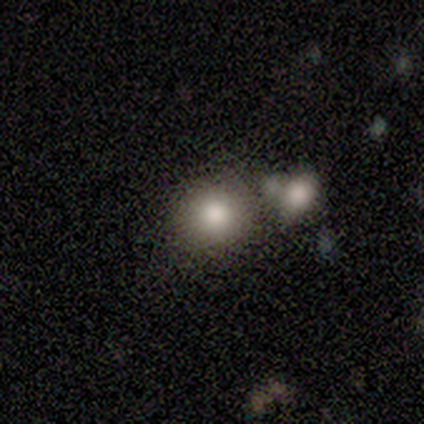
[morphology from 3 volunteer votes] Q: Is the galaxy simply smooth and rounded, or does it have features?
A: smooth — 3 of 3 (100%).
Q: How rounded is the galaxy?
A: round — 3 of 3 (100%).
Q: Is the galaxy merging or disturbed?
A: none — 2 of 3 (67%).